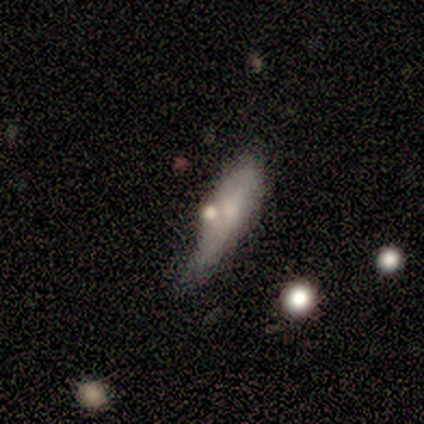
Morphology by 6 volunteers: Smooth or featured? 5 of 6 (83%) said smooth. How rounded? 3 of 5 (60%) said in between. Merging? 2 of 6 (33%, tied with minor disturbance and major disturbance) said none.